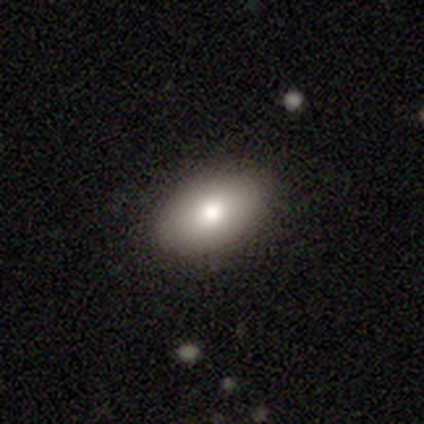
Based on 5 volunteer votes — This appears to be a smooth galaxy with no disk features (80%) that is in between round and cigar-shaped (100%). Merging: none (80%).